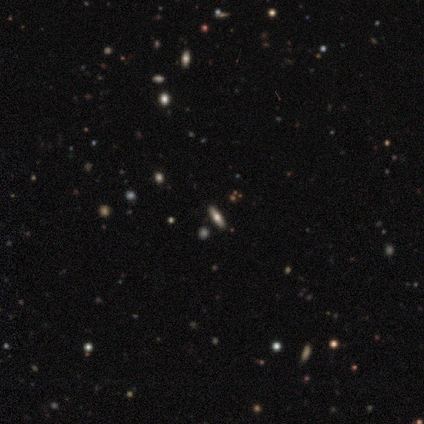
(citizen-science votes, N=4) Smooth or featured? 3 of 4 (75%) said smooth. How rounded? 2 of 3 (67%) said cigar-shaped. Merging? 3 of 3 (100%) said none.